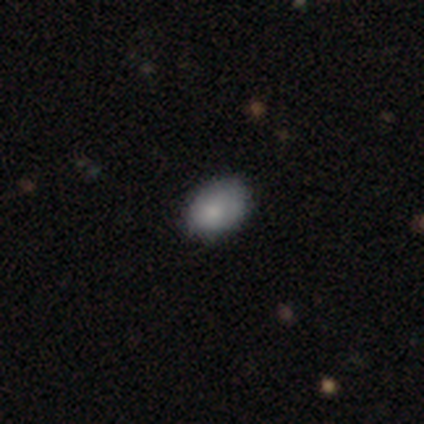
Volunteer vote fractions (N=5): A smooth galaxy with no disk features (100%) that is in between round and cigar-shaped (80%). Merging: none (80%).